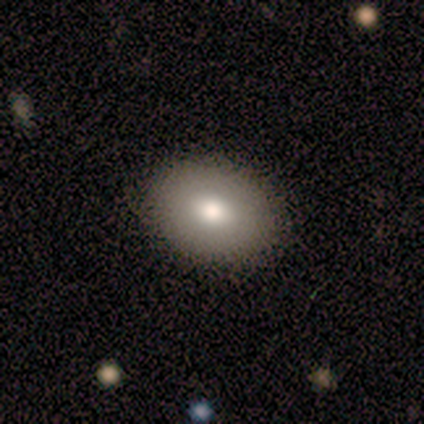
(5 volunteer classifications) A smooth galaxy with no disk features (100%) that is in between round and cigar-shaped (60%).

Vote fractions:
- Smooth or featured? smooth: 100% / featured or disk: 0% / star or artifact: 0%
- How rounded? in between: 60% / round: 40% / cigar-shaped: 0%
- Merging? none: 100% / minor disturbance: 0% / major disturbance: 0% / merger: 0%